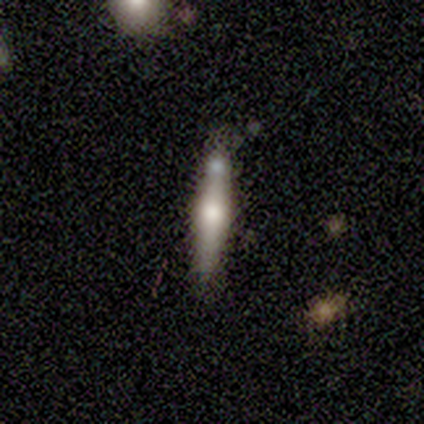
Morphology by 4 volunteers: smooth_or_featured: smooth (p=0.50) [tied with: featured or disk p=0.50]
how_rounded: cigar-shaped (p=1.00)
merging: none (p=0.50) [alt: minor disturbance p=0.25]